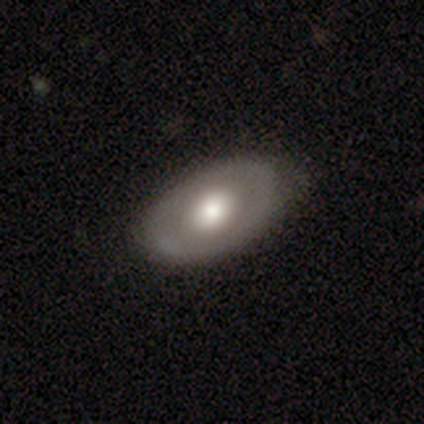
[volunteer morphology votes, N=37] A featured or disk galaxy (62%) with no bar (96%), no spiral arms (96%) and a large central bulge (52%).

Vote fractions:
- Smooth or featured? featured or disk: 62% / smooth: 35% / star or artifact: 3%
- Edge-on disk? no: 100% / yes: 0%
- Bar? no: 96% / weak: 4% / strong: 0%
- Spiral arms? no: 96% / yes: 4%
- Bulge size? large: 52% / moderate: 43% / small: 4% / dominant: 0% / none: 0%
- Merging? none: 44% / minor disturbance: 14% / major disturbance: 0% / merger: 0%